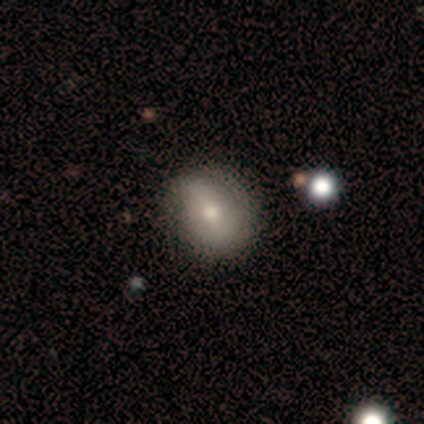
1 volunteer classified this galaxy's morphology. A smooth galaxy with no disk features (100%) that is round (100%). Merging: none (100%).